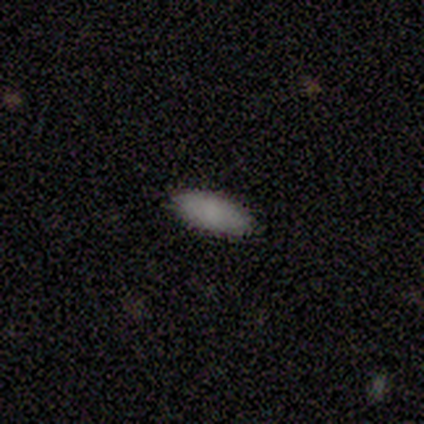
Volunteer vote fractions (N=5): This appears to be a smooth galaxy with no disk features (80%) that is in between round and cigar-shaped (100%). Merging: none (80%).